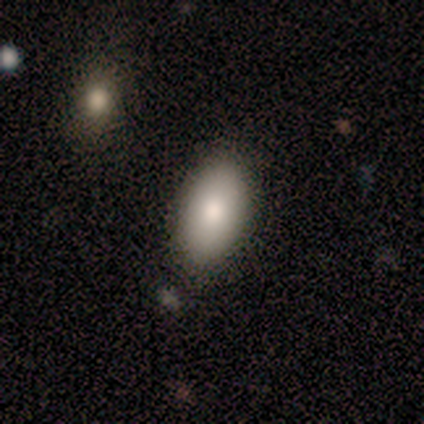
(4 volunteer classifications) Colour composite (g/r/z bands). It shows a smooth galaxy with no disk features (100%) that is in between round and cigar-shaped (100%). Merging: none (100%).